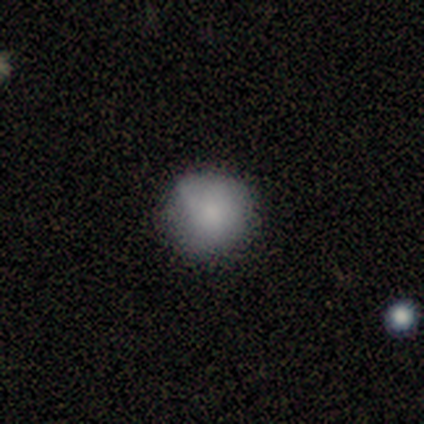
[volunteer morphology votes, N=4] Smooth or featured? smooth (100%)
How rounded? round (100%)
Merging? none (75%)